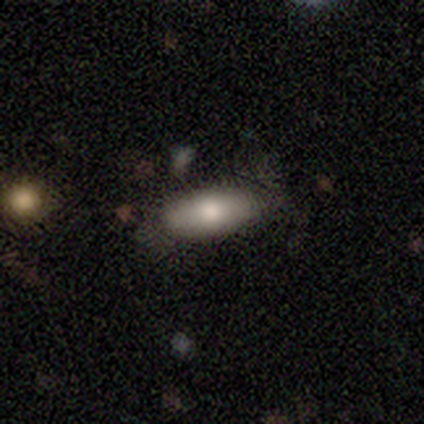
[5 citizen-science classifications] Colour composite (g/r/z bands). It shows a smooth galaxy with no disk features (80%) that is in between round and cigar-shaped (100%). Merging: none (80%).